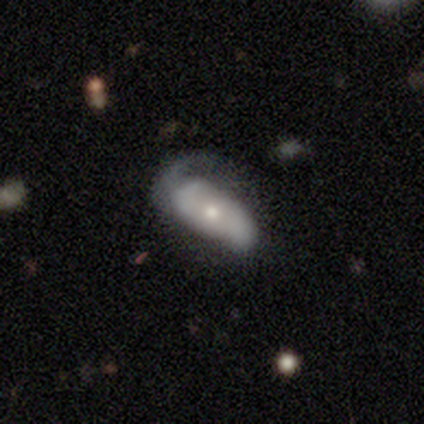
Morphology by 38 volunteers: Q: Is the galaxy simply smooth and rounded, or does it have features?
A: featured or disk — 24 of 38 (63%).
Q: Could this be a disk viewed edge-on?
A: no — 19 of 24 (79%).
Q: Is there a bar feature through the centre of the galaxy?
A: no — 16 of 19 (84%).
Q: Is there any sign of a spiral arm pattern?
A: yes — 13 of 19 (68%).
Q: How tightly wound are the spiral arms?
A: medium — 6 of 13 (46%).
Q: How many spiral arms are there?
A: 2 — 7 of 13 (54%).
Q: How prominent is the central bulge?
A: moderate — 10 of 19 (53%).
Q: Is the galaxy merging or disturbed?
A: major disturbance — 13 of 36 (36%).